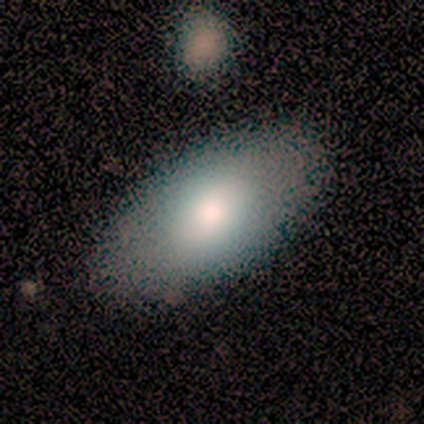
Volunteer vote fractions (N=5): smooth 60%, featured or disk 40%, star or artifact 0%. Down the decision tree: how rounded — in between (100%); merging — none (80%).